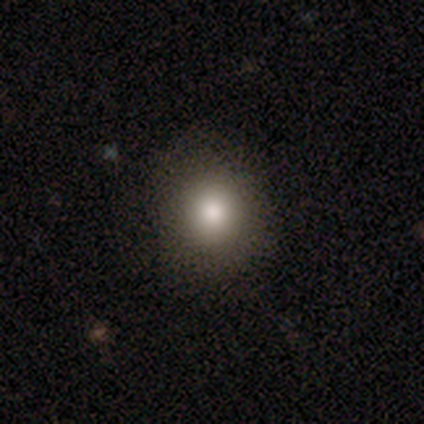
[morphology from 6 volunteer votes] Volunteers were most divided on "smooth or featured" (2-way tie): smooth: 50%, featured or disk: 50%, star or artifact: 0%. More confident: how rounded — round (100%); merging — none (67%).